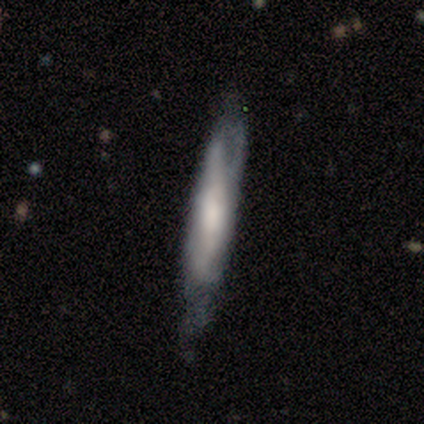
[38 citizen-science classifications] smooth-or-featured: featured or disk: 58% | smooth: 29% | star or artifact: 13%
  disk-edge-on: yes: 73% | no: 27%
    edge-on-bulge: rounded: 69% | none: 25% | boxy: 6%
  merging: none: 52% | minor disturbance: 33% | major disturbance: 15% | merger: 0%